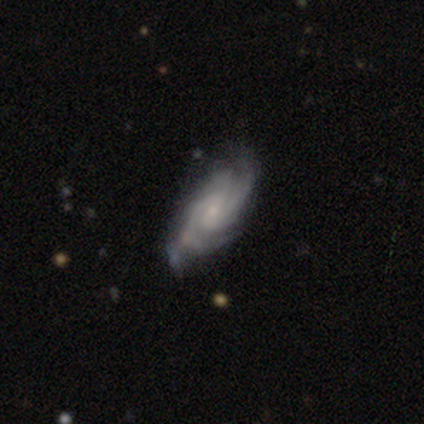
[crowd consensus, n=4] This appears to be a featured or disk galaxy (100%) with no bar (75%), 4 (50%) tight (50%, tied with medium) spiral arms (100%) and a moderate central bulge (50%). Merging: none (50%, tied with minor disturbance).